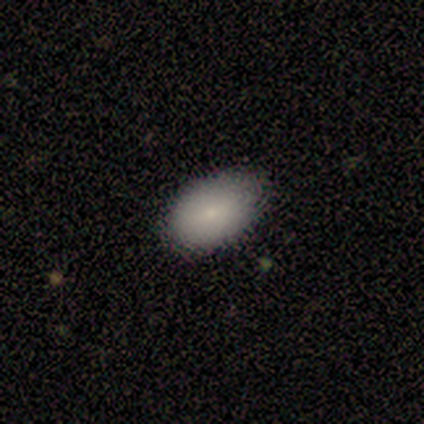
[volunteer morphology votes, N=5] This appears to be a smooth galaxy with no disk features (100%) that is in between round and cigar-shaped (100%). Merging: none (60%).